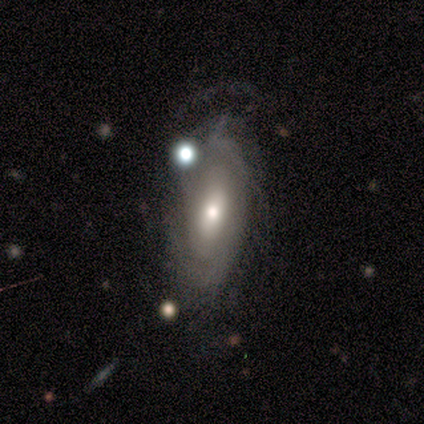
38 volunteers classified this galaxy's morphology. A featured or disk galaxy (68%) with no bar (65%), tight (67%) spiral arms (75%) and a moderate central bulge (75%). Merging: none (61%).